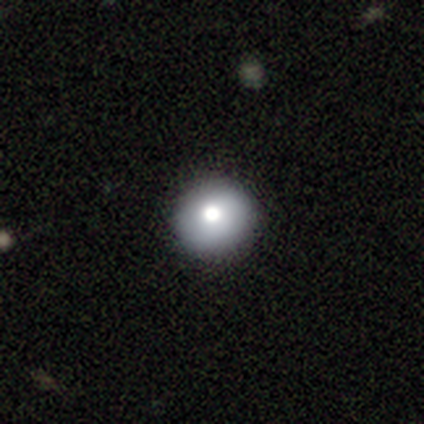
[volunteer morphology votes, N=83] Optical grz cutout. It shows a smooth galaxy with no disk features (71%) that is round (95%). Merging: none (84%).